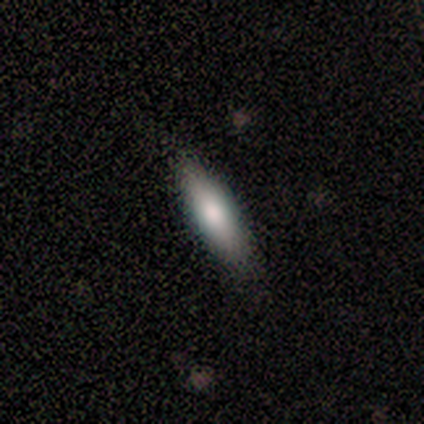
A smooth galaxy with no disk features (86%) that is in between round and cigar-shaped (50%, tied with cigar-shaped).

Vote fractions:
- Smooth or featured? smooth: 86% / star or artifact: 14% / featured or disk: 0%
- How rounded? in between: 50% (tied) / cigar-shaped: 50% (tied) / round: 0%
- Merging? none: 67% / major disturbance: 33% / minor disturbance: 0% / merger: 0%